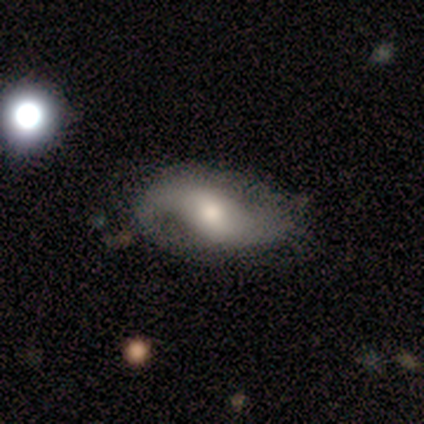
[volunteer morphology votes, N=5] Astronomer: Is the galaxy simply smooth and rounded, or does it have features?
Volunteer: featured or disk — 60% (runner-up: smooth, 40%).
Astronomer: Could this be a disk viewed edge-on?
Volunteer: no — 100%.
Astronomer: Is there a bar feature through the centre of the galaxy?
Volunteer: strong — 67%.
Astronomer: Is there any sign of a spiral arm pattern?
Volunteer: yes — 100%.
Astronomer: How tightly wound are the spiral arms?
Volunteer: loose — 100%.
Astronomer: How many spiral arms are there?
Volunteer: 2 — 100%.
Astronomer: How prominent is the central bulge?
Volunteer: moderate — 100%.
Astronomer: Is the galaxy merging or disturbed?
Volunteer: minor disturbance — 40%, tied with major disturbance at 40%.